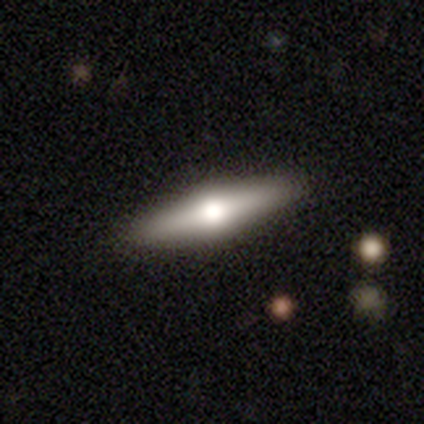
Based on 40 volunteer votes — Q: Smooth or featured?
A: featured or disk (57%); runner-up: smooth (38%)
Q: Edge-on disk?
A: yes (96%); runner-up: no (4%)
Q: Edge-on bulge?
A: rounded (100%)
Q: Merging?
A: none (87%); runner-up: minor disturbance (8%)